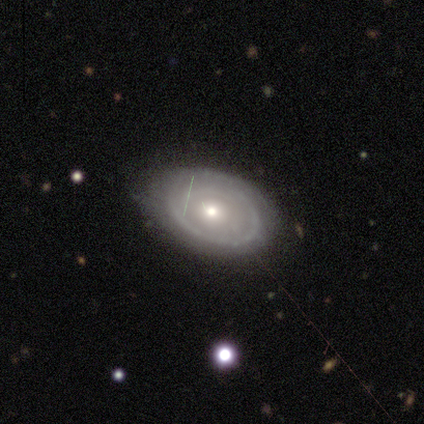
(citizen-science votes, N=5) featured or disk 60%, smooth 40%, star or artifact 0%. Down the decision tree: edge-on disk — no (100%); bar — no (100%); spiral arms — no (100%); bulge size — small (67%); merging — none (80%).